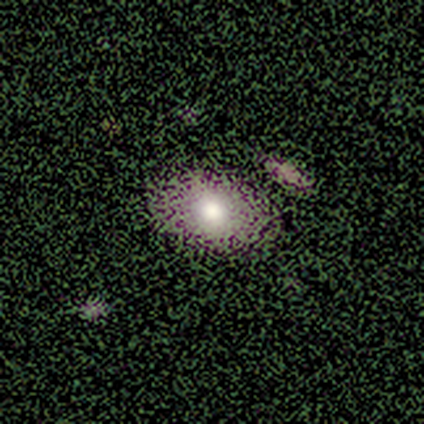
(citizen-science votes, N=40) Smooth or featured? 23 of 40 (57%) said smooth. How rounded? 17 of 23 (74%) said in between. Merging? 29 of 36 (81%) said none.